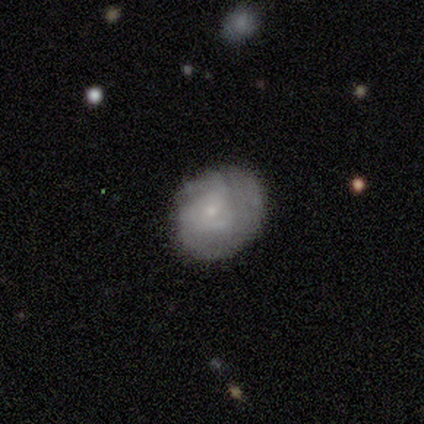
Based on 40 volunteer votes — smooth_or_featured: smooth (p=0.55) [alt: featured or disk p=0.38]
how_rounded: round (p=0.82) [alt: in between p=0.18]
merging: none (p=0.70) [alt: minor disturbance p=0.22]